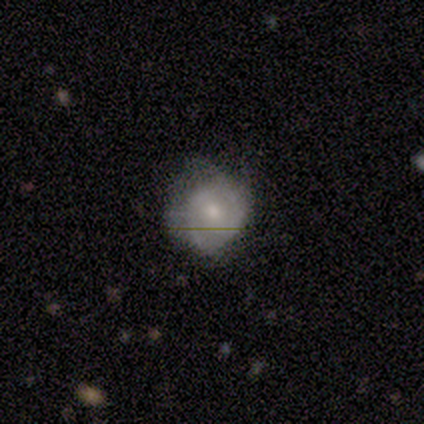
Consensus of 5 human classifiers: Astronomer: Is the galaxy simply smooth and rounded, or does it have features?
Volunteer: smooth — 60%.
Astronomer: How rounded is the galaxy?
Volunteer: round — 100%.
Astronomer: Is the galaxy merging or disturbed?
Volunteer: minor disturbance — 75%.